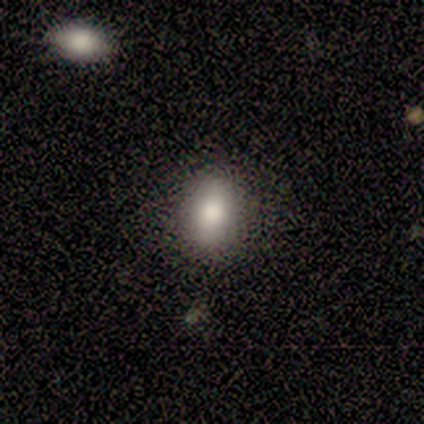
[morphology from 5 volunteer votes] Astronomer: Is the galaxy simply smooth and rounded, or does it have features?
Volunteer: smooth — 100%.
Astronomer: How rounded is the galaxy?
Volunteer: in between — 80%.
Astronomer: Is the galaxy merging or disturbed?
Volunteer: none — 80%.